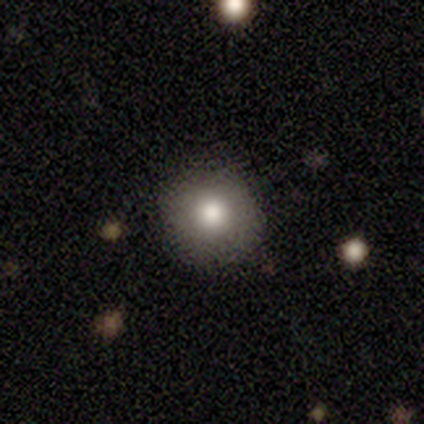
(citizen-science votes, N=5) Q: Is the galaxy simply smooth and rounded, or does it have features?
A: smooth — 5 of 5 (100%).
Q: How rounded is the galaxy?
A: round — 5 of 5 (100%).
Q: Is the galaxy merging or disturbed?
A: none — 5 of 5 (100%).